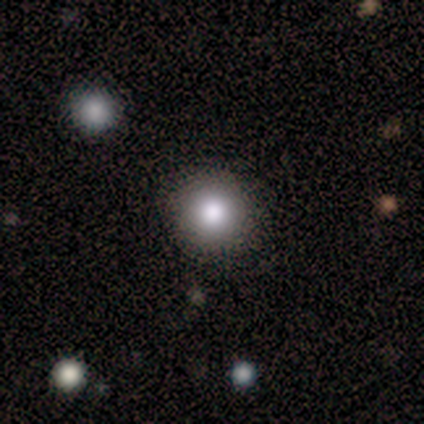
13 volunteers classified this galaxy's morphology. Q: Smooth or featured?
A: smooth (85%); runner-up: star or artifact (15%)
Q: How rounded?
A: round (91%); runner-up: in between (9%)
Q: Merging?
A: none (91%); runner-up: minor disturbance (9%)